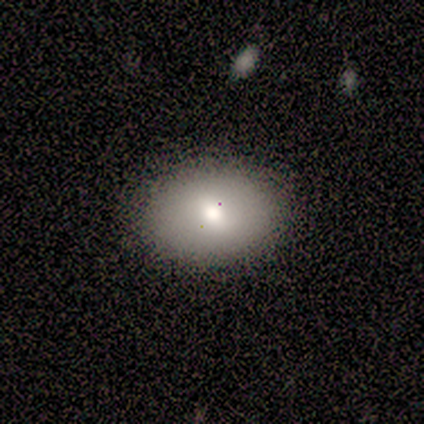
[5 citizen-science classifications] Volunteers were most divided on "smooth or featured": smooth: 60%, featured or disk: 40%, star or artifact: 0%. More confident: how rounded — in between (100%); merging — none (80%).